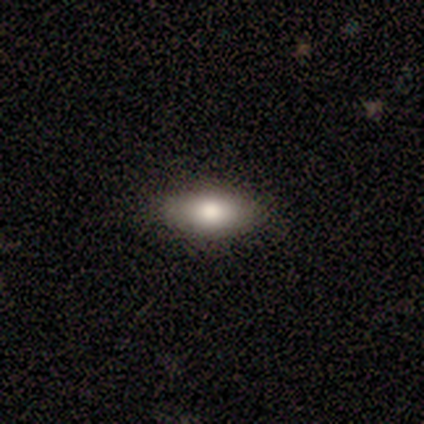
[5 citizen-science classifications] This is likely a smooth galaxy (60%). How rounded: clearly in between (100%). Merging: clearly none (80%).